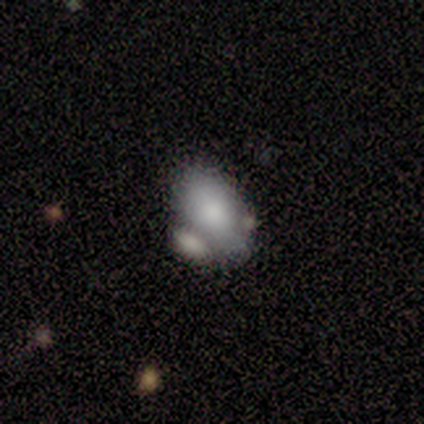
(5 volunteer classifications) A smooth galaxy with no disk features (100%) that is in between round and cigar-shaped (80%). Merging: none (60%).